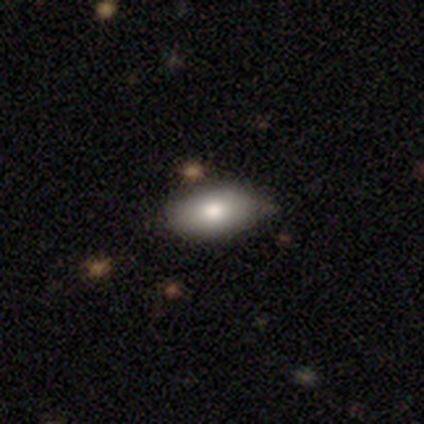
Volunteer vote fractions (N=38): This appears to be a smooth galaxy with no disk features (87%) that is in between round and cigar-shaped (91%). Merging: none (59%).